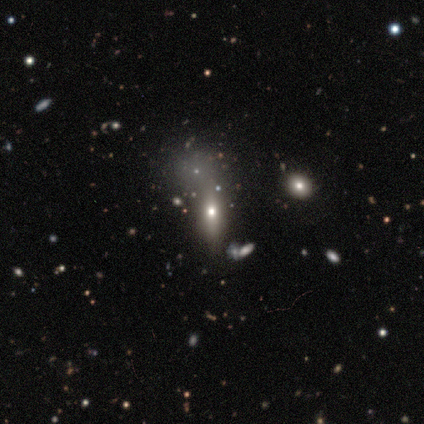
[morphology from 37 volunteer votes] smooth_or_featured: smooth (p=0.46) [alt: star or artifact p=0.30]
how_rounded: in between (p=0.59) [alt: cigar-shaped p=0.29]
merging: none (p=0.69) [alt: merger p=0.15]